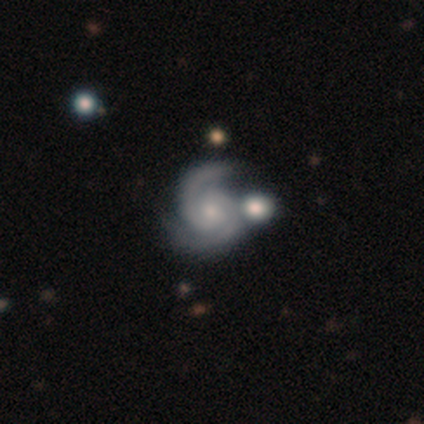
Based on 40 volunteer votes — smooth_or_featured: featured or disk (p=0.88) [alt: smooth p=0.07]
disk_edge_on: no (p=0.97) [alt: yes p=0.03]
bar: no (p=0.74) [alt: weak p=0.26]
has_spiral_arms: yes (p=1.00)
spiral_winding: tight (p=0.59) [alt: medium p=0.35]
spiral_arm_count: 2 (p=0.97) [alt: 3 p=0.03]
bulge_size: small (p=0.74) [alt: moderate p=0.24]
merging: merger (p=0.58)